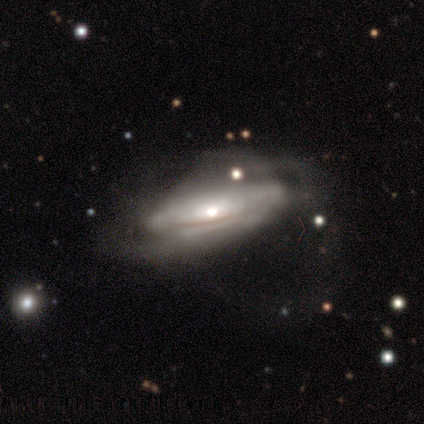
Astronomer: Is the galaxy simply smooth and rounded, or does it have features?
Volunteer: featured or disk — 100%.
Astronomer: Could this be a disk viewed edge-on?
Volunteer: no — 100%.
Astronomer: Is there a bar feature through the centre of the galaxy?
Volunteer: no — 100%.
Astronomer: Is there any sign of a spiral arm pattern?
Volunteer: no — 60% (runner-up: yes, 40%).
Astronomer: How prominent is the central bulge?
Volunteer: moderate — 60% (runner-up: small, 40%).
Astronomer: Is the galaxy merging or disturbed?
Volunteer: major disturbance — 80%.